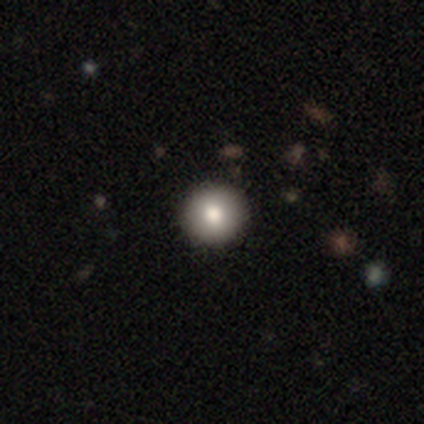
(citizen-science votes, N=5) Consensus on every question: smooth or featured — smooth (100%); how rounded — round (100%); merging — none (100%).